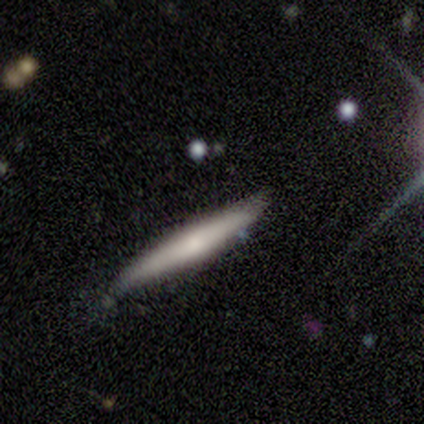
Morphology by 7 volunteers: Q: Smooth or featured?
A: smooth (71%); runner-up: featured or disk (29%)
Q: How rounded?
A: cigar-shaped (100%)
Q: Merging?
A: minor disturbance (57%); runner-up: none (43%)